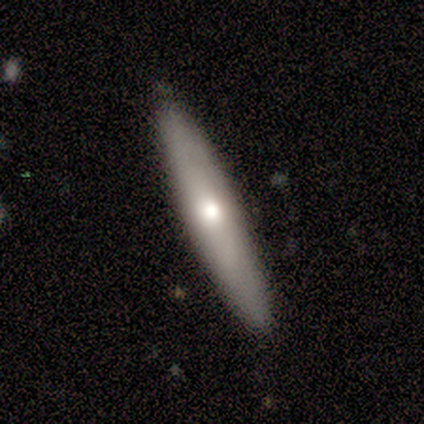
Smooth or featured?
  - smooth: 60% *
  - featured or disk: 40%
  - star or artifact: 0%
How rounded?
  - cigar-shaped: 100% *
  - round: 0%
  - in between: 0%
Merging?
  - none: 100% *
  - minor disturbance: 0%
  - major disturbance: 0%
  - merger: 0%